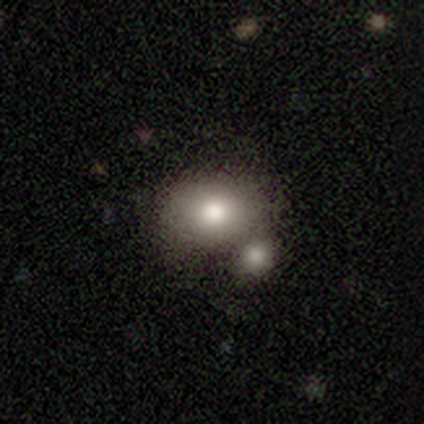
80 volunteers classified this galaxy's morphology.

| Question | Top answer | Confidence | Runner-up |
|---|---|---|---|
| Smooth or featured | smooth | 88% | featured or disk (10%) |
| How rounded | in between | 63% | round (37%) |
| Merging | merger | 51% | none (21%) |